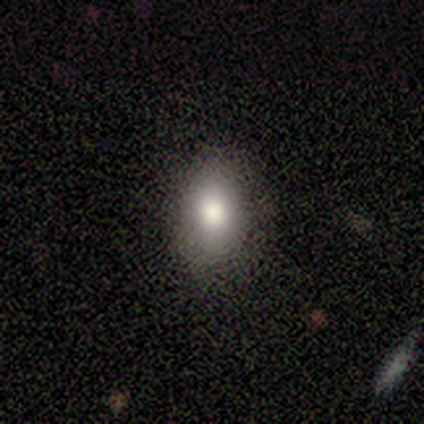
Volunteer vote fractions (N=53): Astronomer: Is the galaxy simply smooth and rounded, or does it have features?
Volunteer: smooth — 87%.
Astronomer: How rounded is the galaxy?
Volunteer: in between — 89%.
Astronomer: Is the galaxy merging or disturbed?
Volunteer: none — 84%.